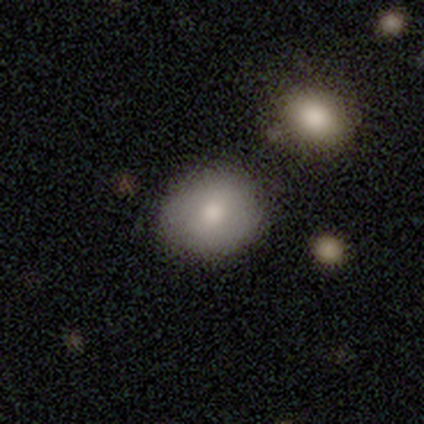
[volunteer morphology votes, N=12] smooth-or-featured: smooth: 50% | featured or disk: 42% | star or artifact: 8%
  how-rounded: round: 50% (tied) | in between: 50% (tied) | cigar-shaped: 0%
  merging: none: 82% | minor disturbance: 9% | merger: 9% | major disturbance: 0%